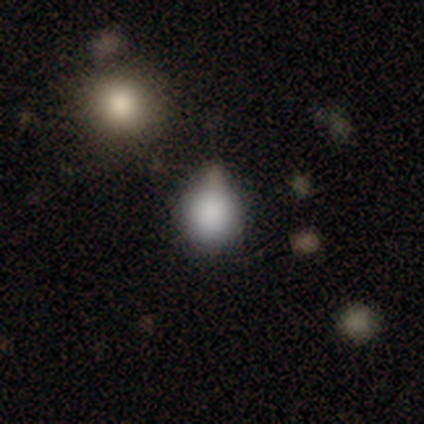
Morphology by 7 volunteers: This is clearly a smooth galaxy (86%). How rounded: clearly round (83%). Merging: possibly none (50%).